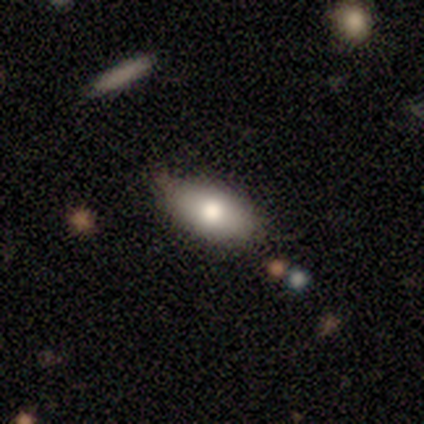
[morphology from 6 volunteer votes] Smooth or featured?
  - smooth: 100% *
  - featured or disk: 0%
  - star or artifact: 0%
How rounded?
  - in between: 100% *
  - round: 0%
  - cigar-shaped: 0%
Merging?
  - none: 83% *
  - minor disturbance: 17%
  - major disturbance: 0%
  - merger: 0%